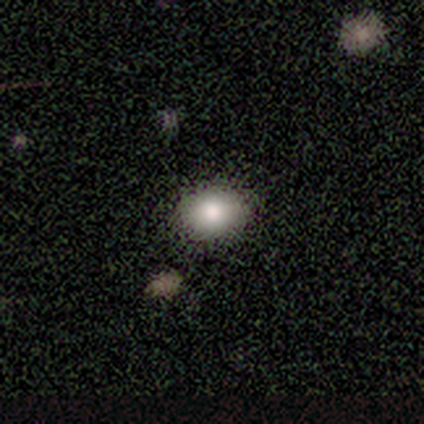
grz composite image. It shows a smooth galaxy with no disk features (83%) that is in between round and cigar-shaped (60%). Merging: none (100%).